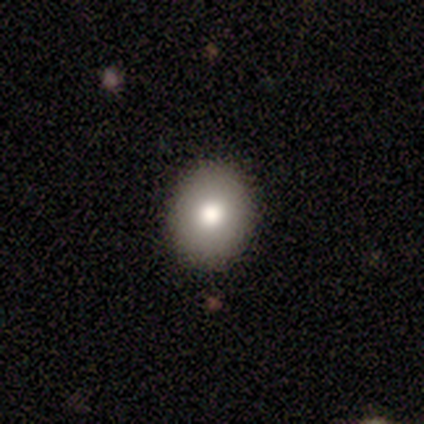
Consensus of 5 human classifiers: A smooth galaxy with no disk features (100%) that is in between round and cigar-shaped (60%).

Vote fractions:
- Smooth or featured? smooth: 100% / featured or disk: 0% / star or artifact: 0%
- How rounded? in between: 60% / round: 40% / cigar-shaped: 0%
- Merging? none: 100% / minor disturbance: 0% / major disturbance: 0% / merger: 0%